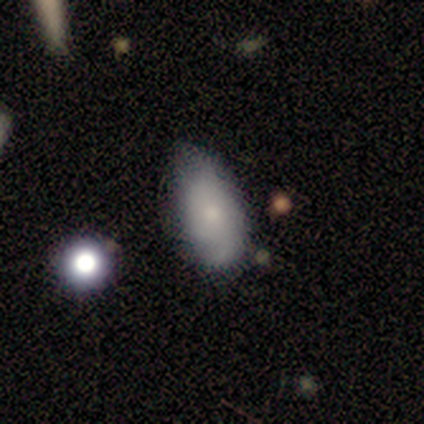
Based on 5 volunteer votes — Volunteers were most divided on "smooth or featured": smooth: 60%, featured or disk: 20%, star or artifact: 20%. More confident: how rounded — in between (100%); merging — none (75%).